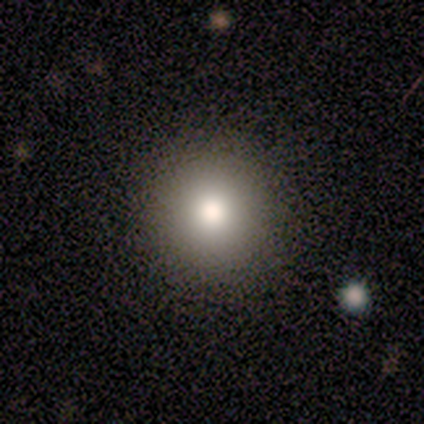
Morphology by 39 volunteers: Overall: smooth (72%). How rounded: round (100%). Merging: none (91%).